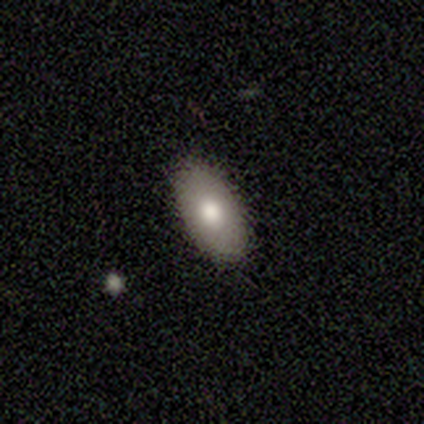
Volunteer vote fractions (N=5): Morphology: type=smooth (60%); roundness=in between (67%); merging=none (100%).